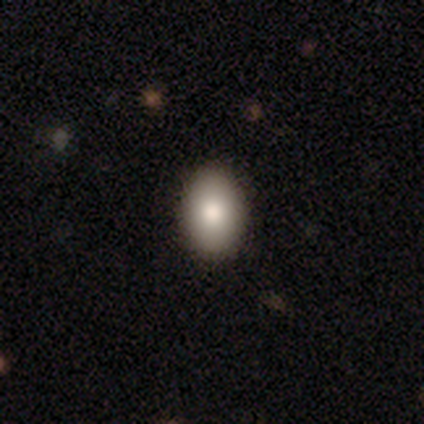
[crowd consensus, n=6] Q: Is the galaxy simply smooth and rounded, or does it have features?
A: smooth — 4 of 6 (67%).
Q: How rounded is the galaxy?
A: in between — 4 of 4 (100%).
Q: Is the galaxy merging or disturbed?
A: none — 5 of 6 (83%).